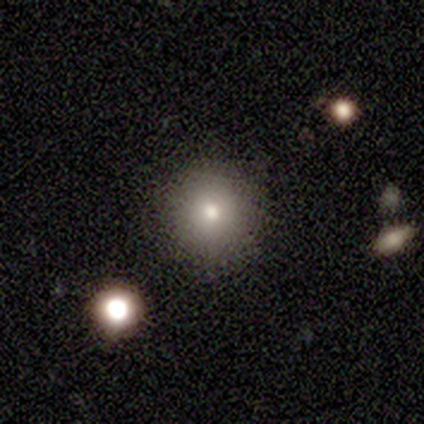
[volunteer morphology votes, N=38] A smooth galaxy with no disk features (79%) that is round (93%).

Vote fractions:
- Smooth or featured? smooth: 79% / featured or disk: 16% / star or artifact: 5%
- How rounded? round: 93% / in between: 7% / cigar-shaped: 0%
- Merging? none: 86% / major disturbance: 6% / merger: 6% / minor disturbance: 3%